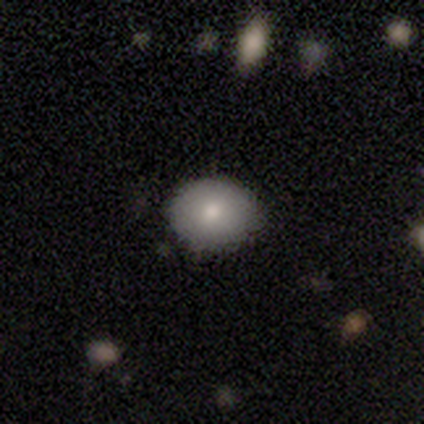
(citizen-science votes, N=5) Smooth or featured? smooth (80%)
How rounded? round (75%)
Merging? none (100%)